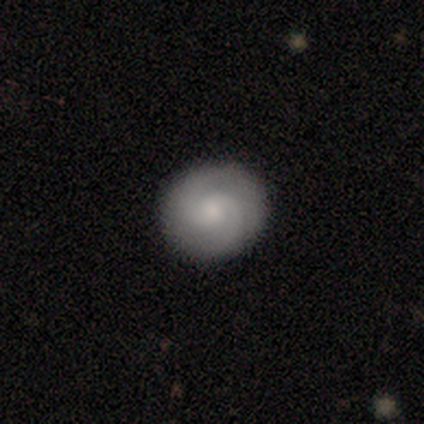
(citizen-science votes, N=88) Smooth or featured? featured or disk (60%)
Edge-on disk? no (94%)
Bar? no (74%)
Spiral arms? yes (98%)
Spiral winding? tight (55%)
Spiral arm count? 2 (86%)
Bulge size? moderate (44%, tied with small)
Merging? none (96%)